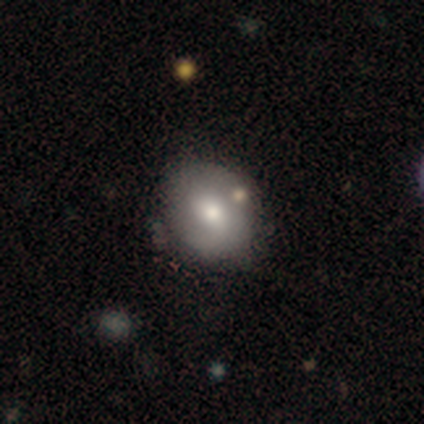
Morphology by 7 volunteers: Smooth or featured: smooth — 86% (featured or disk — 14%)
How rounded: round — 67% (in between — 33%)
Merging: none — 86% (merger — 14%)